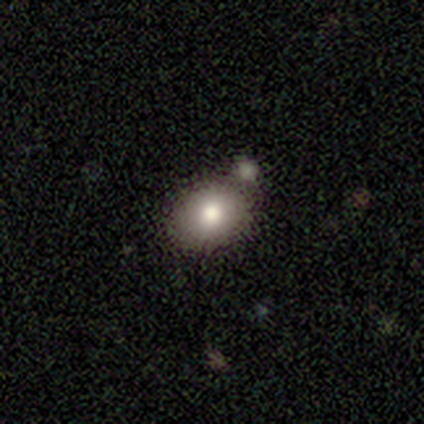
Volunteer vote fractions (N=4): smooth 100%, featured or disk 0%, star or artifact 0%. Down the decision tree: how rounded — round (50%, tied with in between); merging — none (50%).